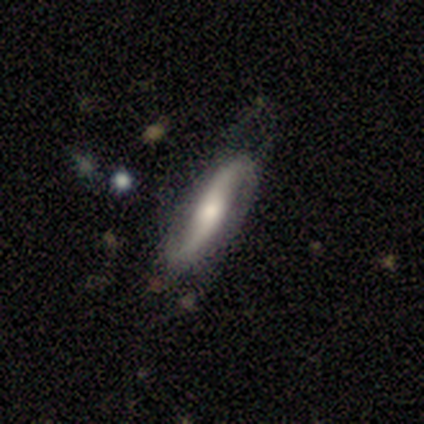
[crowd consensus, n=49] Smooth or featured? 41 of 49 (84%) said featured or disk. Edge-on disk? 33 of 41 (80%) said no. Bar? 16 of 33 (48%) said no. Spiral arms? 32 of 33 (97%) said yes. Spiral winding? 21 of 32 (66%) said loose. Spiral arm count? 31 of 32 (97%) said 2. Bulge size? 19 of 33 (58%) said moderate. Merging? 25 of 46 (54%) said none.